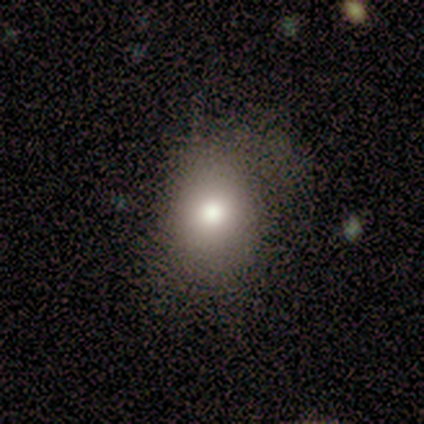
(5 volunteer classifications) Smooth or featured?
  - smooth: 100% *
  - featured or disk: 0%
  - star or artifact: 0%
How rounded?
  - in between: 80% *
  - round: 20%
  - cigar-shaped: 0%
Merging?
  - minor disturbance: 60% *
  - none: 40%
  - major disturbance: 0%
  - merger: 0%